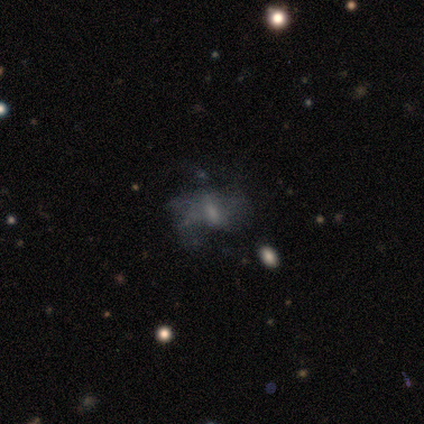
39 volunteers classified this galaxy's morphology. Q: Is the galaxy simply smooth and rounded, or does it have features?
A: featured or disk — 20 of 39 (51%).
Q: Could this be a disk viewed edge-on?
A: no — 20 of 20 (100%).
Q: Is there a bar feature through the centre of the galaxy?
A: no — 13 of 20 (65%).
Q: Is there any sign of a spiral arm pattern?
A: no — 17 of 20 (85%).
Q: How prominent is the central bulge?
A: moderate — 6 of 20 (30%, tied with none).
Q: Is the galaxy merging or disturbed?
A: none — 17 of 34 (50%).